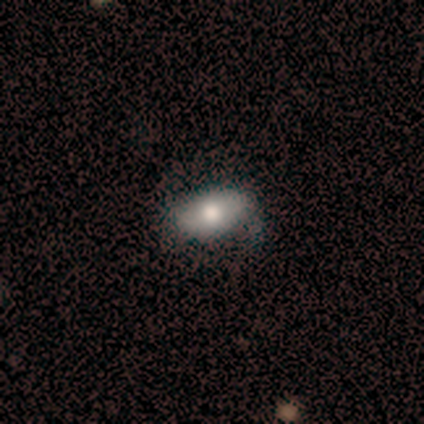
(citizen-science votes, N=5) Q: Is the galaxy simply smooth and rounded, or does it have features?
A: smooth — 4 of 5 (80%).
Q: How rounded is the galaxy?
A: in between — 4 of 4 (100%).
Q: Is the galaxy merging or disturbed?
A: none — 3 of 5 (60%).